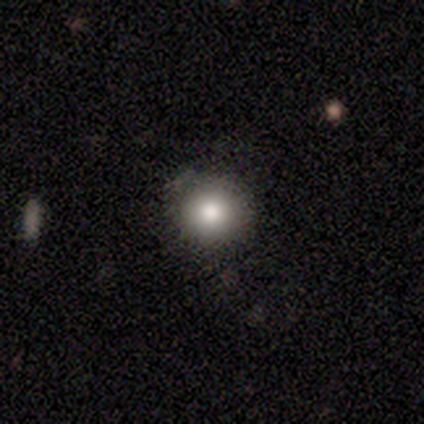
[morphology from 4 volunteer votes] smooth-or-featured: smooth: 100% | featured or disk: 0% | star or artifact: 0%
  how-rounded: round: 100% | in between: 0% | cigar-shaped: 0%
  merging: none: 75% | minor disturbance: 25% | major disturbance: 0% | merger: 0%